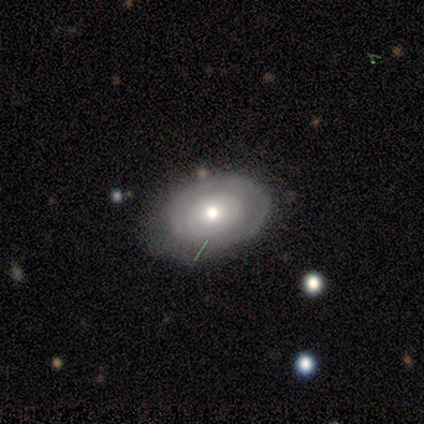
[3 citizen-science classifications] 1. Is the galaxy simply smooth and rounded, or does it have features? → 67% featured or disk, 33% smooth, 0% star or artifact.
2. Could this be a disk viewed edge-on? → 100% no, 0% yes.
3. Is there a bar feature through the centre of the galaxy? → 100% no, 0% strong, 0% weak.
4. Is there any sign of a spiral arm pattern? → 50% yes (tied), 50% no (tied).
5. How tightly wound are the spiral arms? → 100% tight, 0% medium, 0% loose.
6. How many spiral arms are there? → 100% 1, 0% 2, 0% 3, 0% 4, 0% more than 4, 0% can't tell.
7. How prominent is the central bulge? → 50% moderate (tied), 50% small (tied), 0% dominant, 0% large, 0% none.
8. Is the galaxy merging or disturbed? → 67% none, 33% minor disturbance, 0% major disturbance, 0% merger.